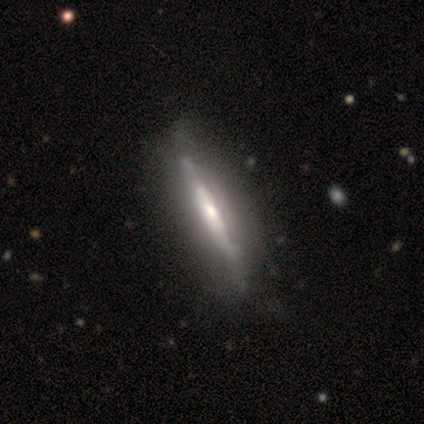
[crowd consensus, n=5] Volunteers were most divided on "smooth or featured": featured or disk: 60%, smooth: 40%, star or artifact: 0%. More confident: edge-on disk — yes (100%); edge-on bulge — rounded (67%); merging — none (60%).